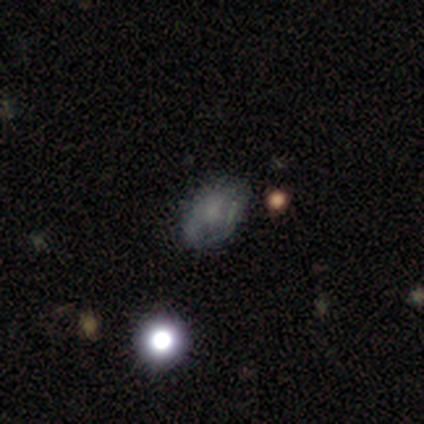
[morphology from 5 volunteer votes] Smooth or featured? 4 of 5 (80%) said star or artifact.